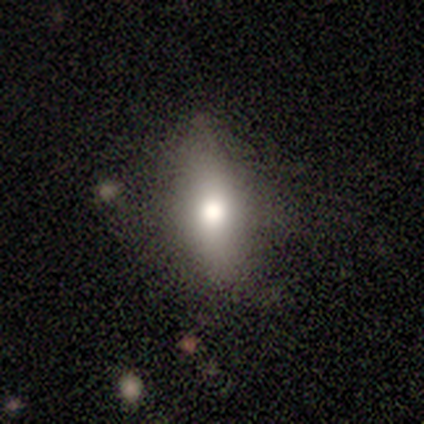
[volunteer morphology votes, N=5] Volunteers were most divided on "how rounded": in between: 67%, round: 33%, cigar-shaped: 0%. More confident: merging — none (100%); smooth or featured — smooth (60%).